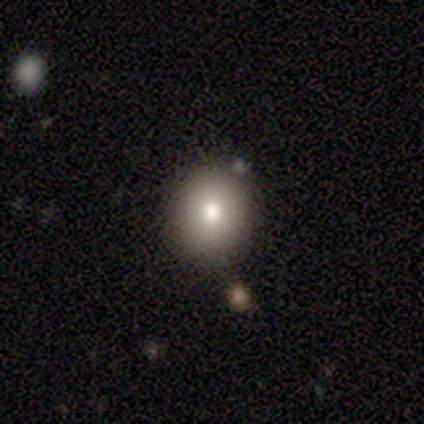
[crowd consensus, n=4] Overall: smooth (75%). How rounded: round (100%). Merging: none (100%).